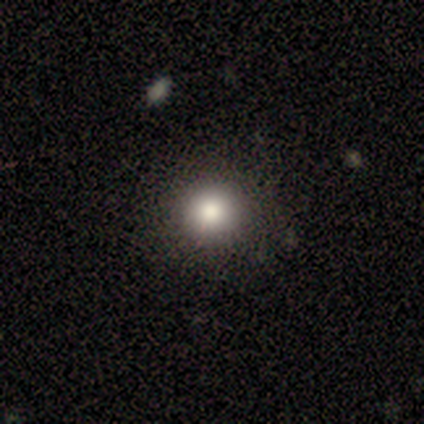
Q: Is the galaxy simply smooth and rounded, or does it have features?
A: smooth — 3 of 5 (60%).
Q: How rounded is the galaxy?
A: round — 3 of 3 (100%).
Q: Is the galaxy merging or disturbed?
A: none — 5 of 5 (100%).